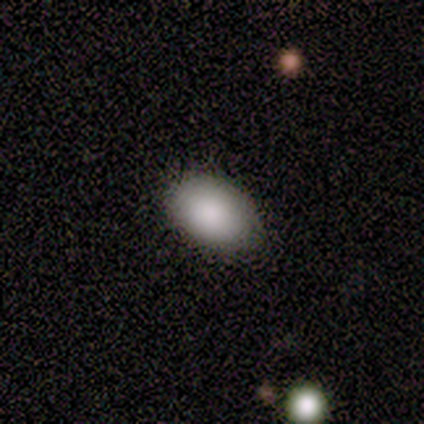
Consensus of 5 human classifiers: A smooth galaxy with no disk features (100%) that is in between round and cigar-shaped (100%). Merging: none (100%).